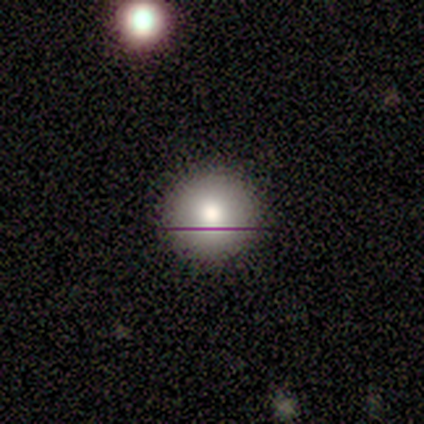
smooth-or-featured: smooth: 75% | featured or disk: 25% | star or artifact: 0%
  how-rounded: round: 100% | in between: 0% | cigar-shaped: 0%
  merging: none: 100% | minor disturbance: 0% | major disturbance: 0% | merger: 0%